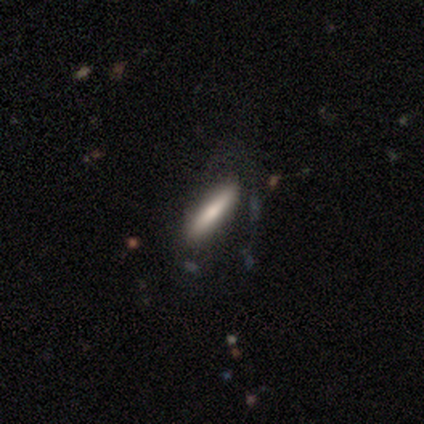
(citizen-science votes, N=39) Smooth or featured?
  - smooth: 67% *
  - featured or disk: 28%
  - star or artifact: 5%
How rounded?
  - cigar-shaped: 88% *
  - in between: 12%
  - round: 0%
Merging?
  - none: 70% *
  - minor disturbance: 19%
  - major disturbance: 11%
  - merger: 0%